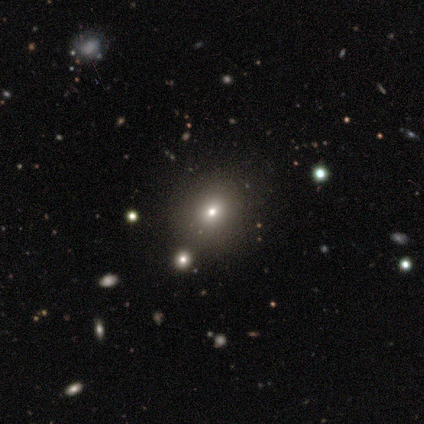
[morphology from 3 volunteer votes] A smooth galaxy with no disk features (67%) that is in between round and cigar-shaped (100%). Merging: none (50%, tied with minor disturbance).